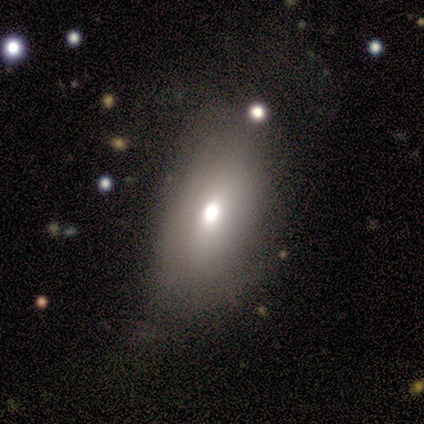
Volunteers were most divided on "smooth or featured": smooth: 60%, featured or disk: 40%, star or artifact: 0%. More confident: how rounded — in between (67%); merging — none (60%).